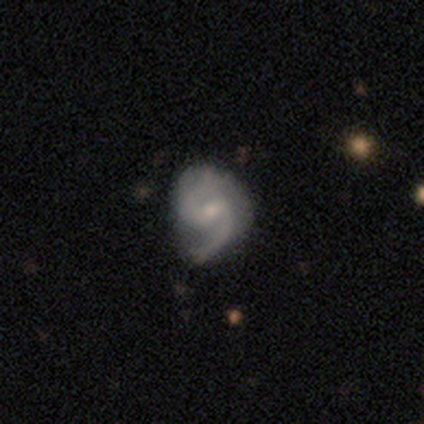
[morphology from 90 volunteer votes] featured or disk 92%, star or artifact 4%, smooth 3%. Down the decision tree: edge-on disk — no (99%); bar — weak (63%); spiral arms — yes (95%); spiral arm count — 2 (90%); spiral winding — medium (60%); bulge size — small (59%); merging — none (66%).